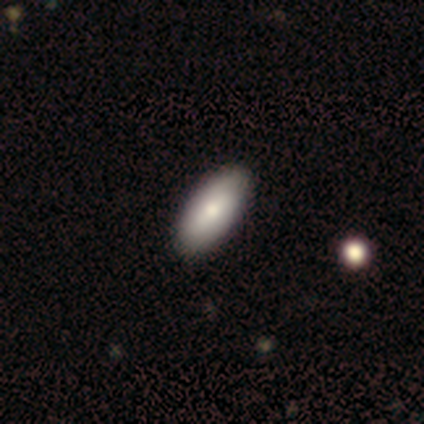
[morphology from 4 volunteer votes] Volunteers were most divided on "merging": none: 67%, minor disturbance: 33%, major disturbance: 0%, merger: 0%. More confident: how rounded — in between (100%); smooth or featured — smooth (75%).